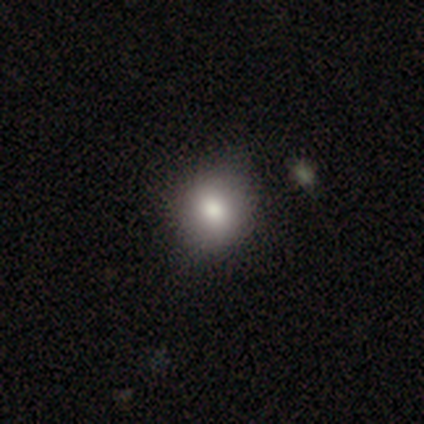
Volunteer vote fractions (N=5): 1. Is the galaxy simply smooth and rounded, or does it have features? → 60% smooth, 40% star or artifact, 0% featured or disk.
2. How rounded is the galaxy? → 67% round, 33% in between, 0% cigar-shaped.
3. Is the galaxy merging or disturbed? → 67% none, 33% minor disturbance, 0% major disturbance, 0% merger.